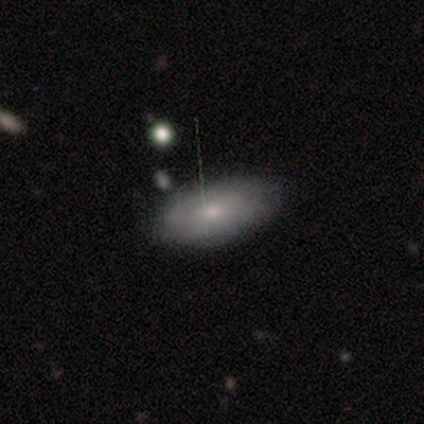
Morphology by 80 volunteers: A smooth galaxy with no disk features (57%) that is in between round and cigar-shaped (85%). Merging: none (43%).